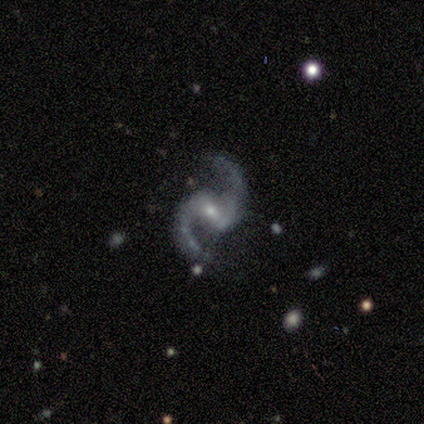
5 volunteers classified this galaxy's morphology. featured or disk 100%, smooth 0%, star or artifact 0%. Down the decision tree: edge-on disk — no (100%); bar — strong (60%); spiral arms — yes (100%); spiral arm count — 2 (100%); spiral winding — loose (80%); bulge size — moderate (80%); merging — none (80%).